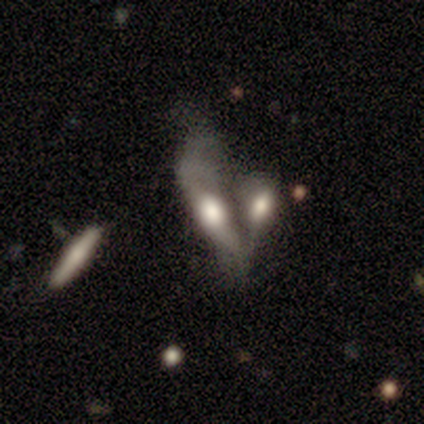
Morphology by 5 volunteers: Smooth or featured: featured or disk — 100%
Edge-on disk: no — 60% (yes — 40%)
Bar: no — 100%
Spiral arms: no — 67% (yes — 33%)
Bulge size: large — 67% (none — 33%)
Merging: merger — 60% (none — 40%)